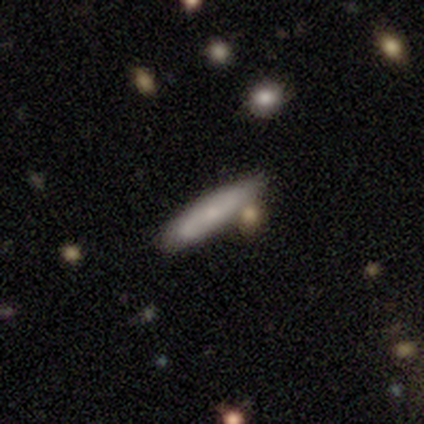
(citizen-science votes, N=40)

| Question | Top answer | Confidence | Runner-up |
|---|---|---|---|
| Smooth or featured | smooth | 70% | featured or disk (28%) |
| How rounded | cigar-shaped | 89% | in between (11%) |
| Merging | none | 77% | minor disturbance (10%) |